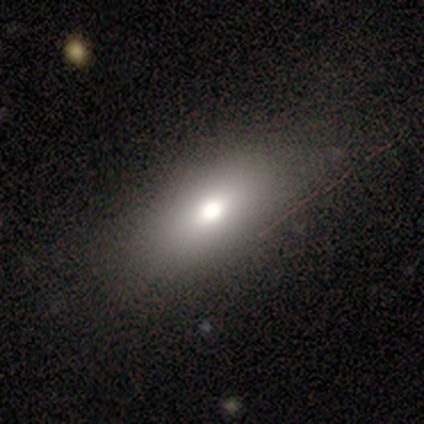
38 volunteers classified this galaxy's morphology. type=smooth (76%); roundness=in between (86%); merging=none (63%).